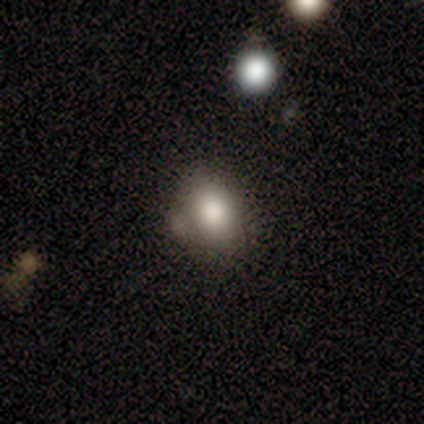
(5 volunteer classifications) Smooth or featured? smooth (60%)
How rounded? round (67%)
Merging? none (80%)